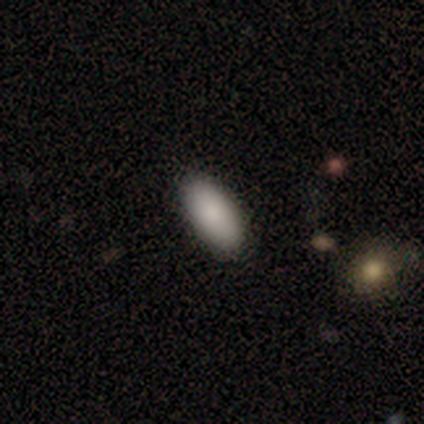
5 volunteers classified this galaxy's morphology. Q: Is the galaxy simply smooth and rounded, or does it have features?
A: smooth — 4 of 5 (80%).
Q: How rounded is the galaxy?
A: in between — 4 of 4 (100%).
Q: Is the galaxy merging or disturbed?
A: none — 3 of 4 (75%).